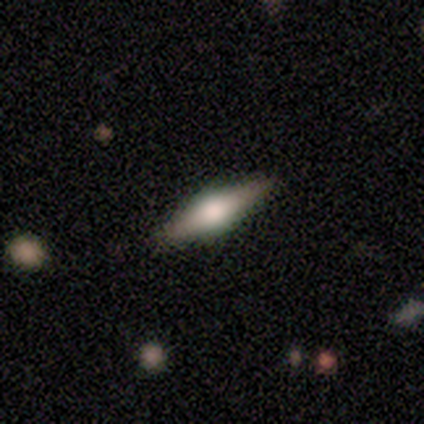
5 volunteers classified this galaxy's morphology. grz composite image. It shows a featured or disk galaxy (60%) viewed edge-on (100%) with a rounded central bulge (67%). Merging: none (100%).